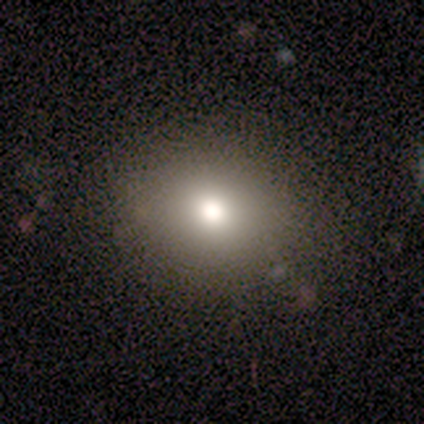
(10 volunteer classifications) This appears to be a smooth galaxy with no disk features (60%) that is round (67%). Merging: none (100%).